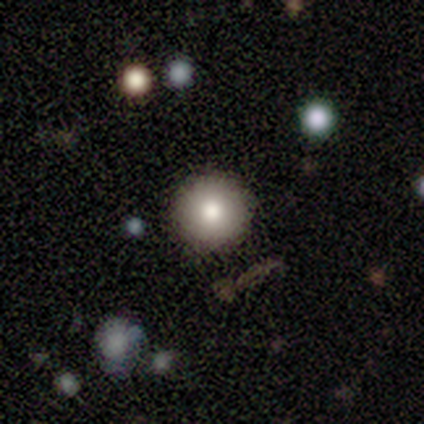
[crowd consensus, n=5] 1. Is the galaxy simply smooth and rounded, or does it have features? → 60% smooth, 40% star or artifact, 0% featured or disk.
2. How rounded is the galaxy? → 100% round, 0% in between, 0% cigar-shaped.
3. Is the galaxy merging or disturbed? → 100% none, 0% minor disturbance, 0% major disturbance, 0% merger.